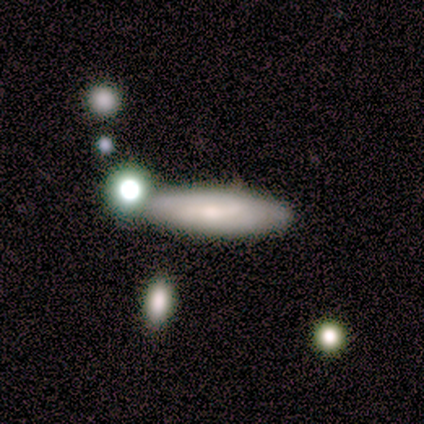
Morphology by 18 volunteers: A smooth galaxy with no disk features (61%) that is cigar-shaped (55%).

Vote fractions:
- Smooth or featured? smooth: 61% / featured or disk: 39% / star or artifact: 0%
- How rounded? cigar-shaped: 55% / in between: 45% / round: 0%
- Merging? none: 61% / minor disturbance: 17% / merger: 17% / major disturbance: 6%